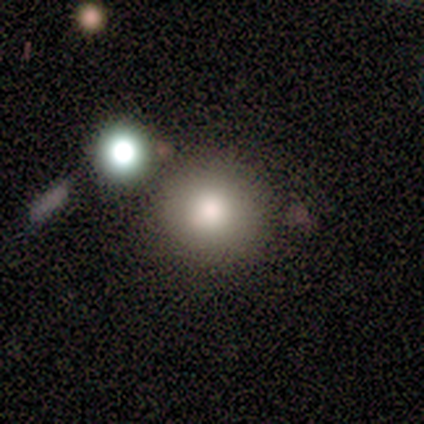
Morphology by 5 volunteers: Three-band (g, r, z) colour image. It shows a smooth galaxy with no disk features (100%) that is round (100%). Merging: none (100%).